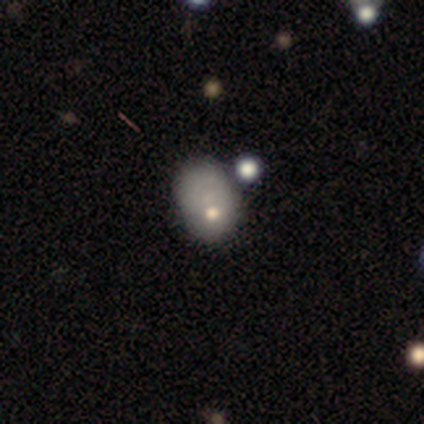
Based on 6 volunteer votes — A smooth galaxy with no disk features (67%) that is in between round and cigar-shaped (100%). Merging: none (40%, tied with minor disturbance).